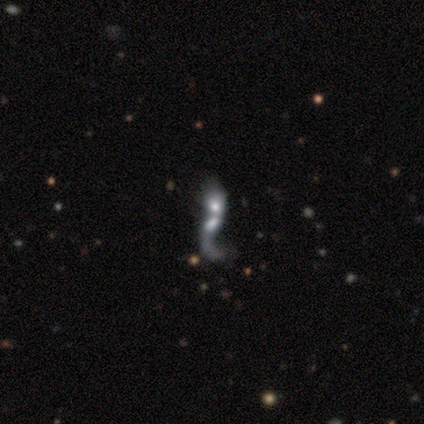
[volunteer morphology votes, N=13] Volunteers were most divided on "bulge size": moderate: 38%, large: 25%, small: 25%, none: 12%, dominant: 0%. More confident: spiral winding — loose (100%); merging — merger (100%); spiral arms — yes (88%); edge-on disk — no (80%); smooth or featured — featured or disk (77%); bar — no (75%); spiral arm count — 1 (57%).